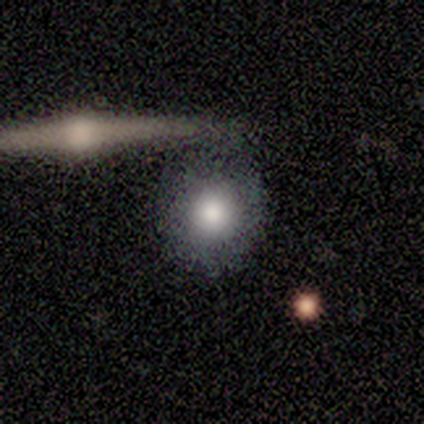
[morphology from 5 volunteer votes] A smooth galaxy with no disk features (100%) that is round (80%). Merging: minor disturbance (60%).